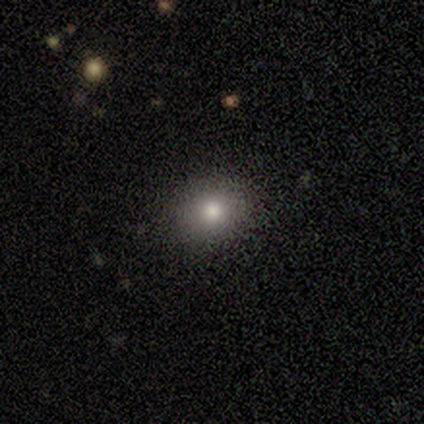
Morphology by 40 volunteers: A smooth galaxy with no disk features (75%) that is round (63%). Merging: none (84%).